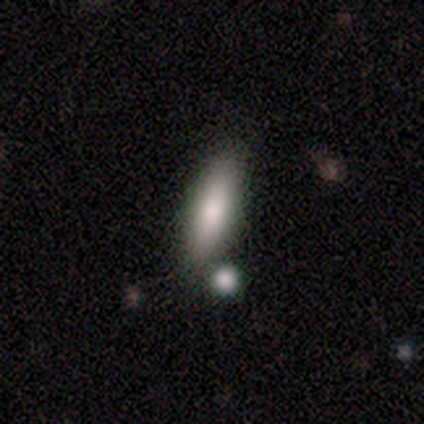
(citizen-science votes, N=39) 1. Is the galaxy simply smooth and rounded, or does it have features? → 79% smooth, 18% featured or disk, 3% star or artifact.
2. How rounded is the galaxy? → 55% cigar-shaped, 45% in between, 0% round.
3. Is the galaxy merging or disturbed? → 76% none, 13% merger, 11% minor disturbance, 0% major disturbance.